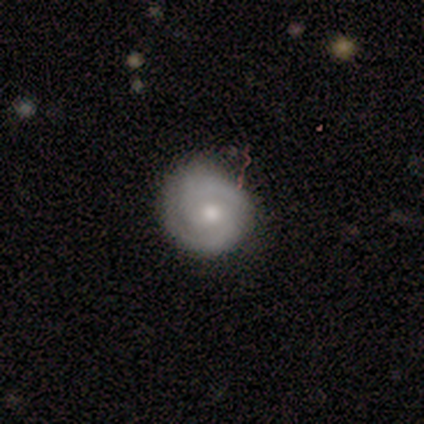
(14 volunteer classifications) Smooth or featured: featured or disk — 79% (smooth — 21%)
Edge-on disk: no — 100%
Bar: no — 82% (strong — 9%)
Spiral arms: yes — 91% (no — 9%)
Spiral winding: tight — 60% (medium — 30%)
Spiral arm count: 2 — 70% (can't tell — 20%)
Bulge size: moderate — 64% (small — 18%)
Merging: none — 64% (minor disturbance — 36%)